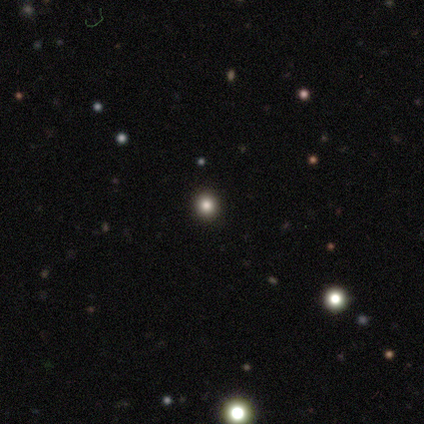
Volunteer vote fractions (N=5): smooth-or-featured: star or artifact: 80% | smooth: 20% | featured or disk: 0%